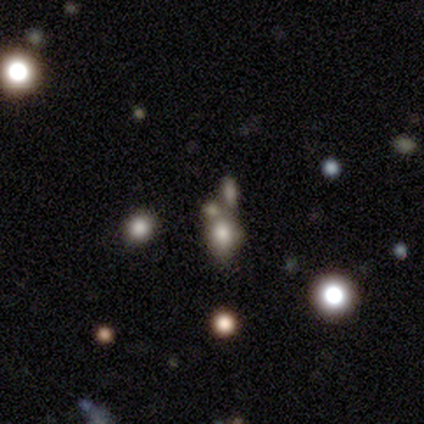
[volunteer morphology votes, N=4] Smooth or featured?
  - star or artifact: 75% *
  - smooth: 25%
  - featured or disk: 0%